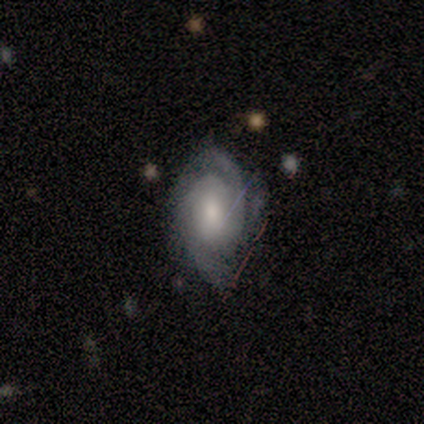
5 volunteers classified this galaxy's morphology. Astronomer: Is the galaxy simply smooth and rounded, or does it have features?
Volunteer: featured or disk — 80%.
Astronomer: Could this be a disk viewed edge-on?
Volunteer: no — 75%.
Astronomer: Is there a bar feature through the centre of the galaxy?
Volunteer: no — 67%.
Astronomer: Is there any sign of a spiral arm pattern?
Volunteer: yes — 100%.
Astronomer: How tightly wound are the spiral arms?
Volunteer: loose — 67%.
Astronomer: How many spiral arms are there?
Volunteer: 1 — 33%, tied with 2 and 3 at 33%.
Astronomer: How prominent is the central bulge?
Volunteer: large — 33%, tied with moderate and small at 33%.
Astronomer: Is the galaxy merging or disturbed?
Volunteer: none — 60%.